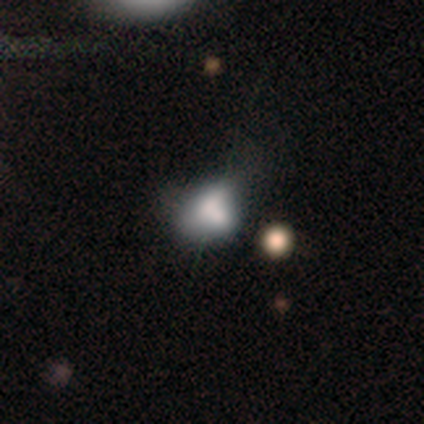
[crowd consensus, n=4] Volunteers were most divided on "merging": merger: 50%, none: 25%, major disturbance: 25%, minor disturbance: 0%. More confident: smooth or featured — smooth (75%); how rounded — in between (67%).